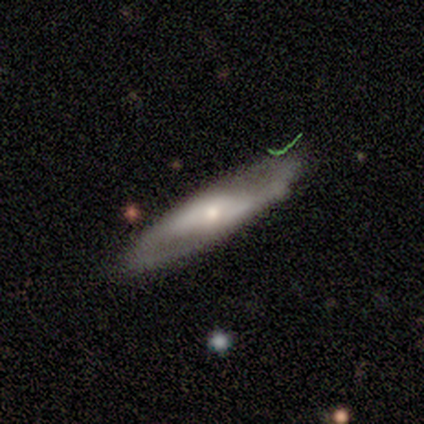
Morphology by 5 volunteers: Smooth or featured? 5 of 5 (100%) said featured or disk. Edge-on disk? 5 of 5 (100%) said no. Bar? 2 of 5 (40%, tied with no) said strong. Spiral arms? 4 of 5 (80%) said yes. Spiral winding? 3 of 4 (75%) said loose. Spiral arm count? 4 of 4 (100%) said 2. Bulge size? 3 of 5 (60%) said small. Merging? 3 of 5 (60%) said none.